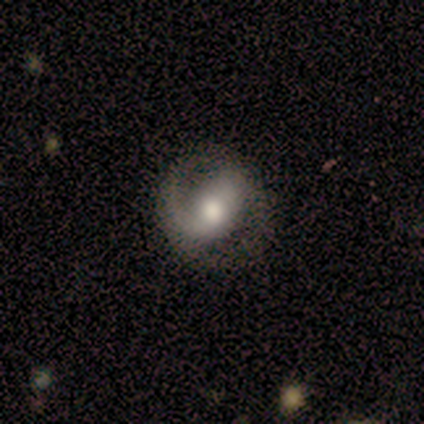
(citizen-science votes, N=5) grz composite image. It shows a featured or disk galaxy (100%) with a weak bar (40%, tied with no), 2 (60%) medium (80%) spiral arms (100%) and a moderate central bulge (100%). Merging: none (80%).